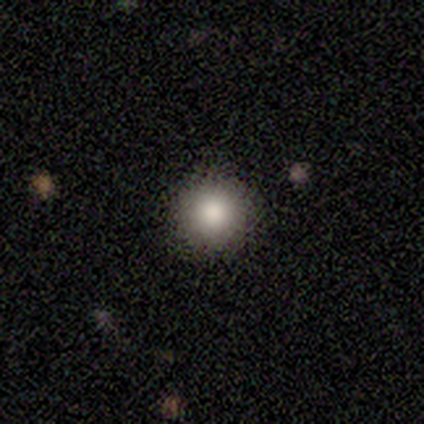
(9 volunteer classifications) Smooth or featured? smooth (67%)
How rounded? round (100%)
Merging? none (100%)